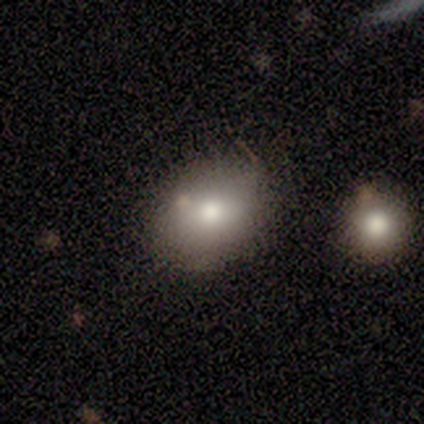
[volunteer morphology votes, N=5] Overall: smooth (60%; featured or disk 40%). How rounded: round (67%; in between 33%). Merging: none (80%).